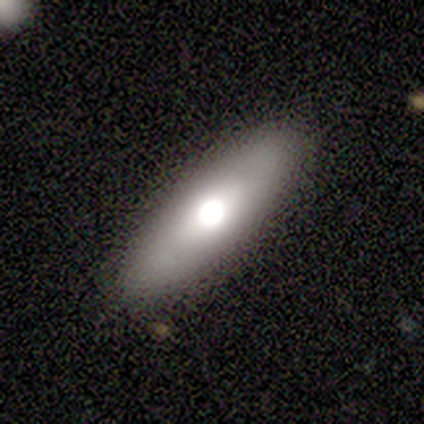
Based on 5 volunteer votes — Smooth or featured? 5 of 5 (100%) said smooth. How rounded? 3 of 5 (60%) said cigar-shaped. Merging? 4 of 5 (80%) said none.